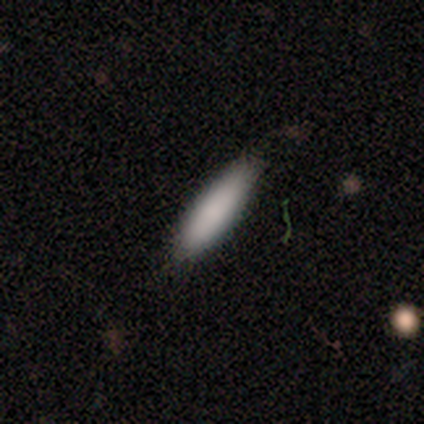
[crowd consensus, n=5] Smooth or featured? smooth (100%)
How rounded? in between (80%)
Merging? none (80%)